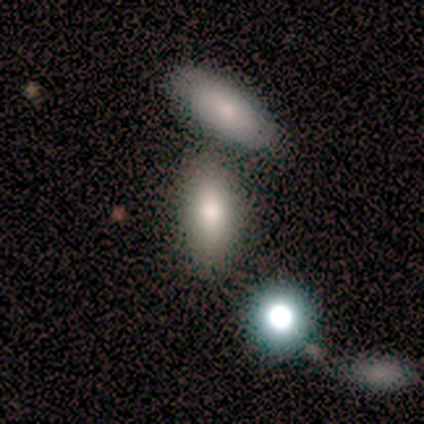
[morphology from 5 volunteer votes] Overall: smooth (80%). How rounded: in between (75%). Merging: merger (80%).